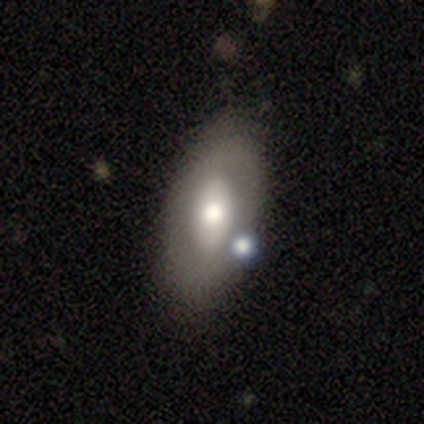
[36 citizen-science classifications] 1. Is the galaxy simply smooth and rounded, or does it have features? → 47% featured or disk, 44% smooth, 8% star or artifact.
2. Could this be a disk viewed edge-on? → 94% no, 6% yes.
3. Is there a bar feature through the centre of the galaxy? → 75% no, 19% strong, 6% weak.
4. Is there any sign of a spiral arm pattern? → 100% no, 0% yes.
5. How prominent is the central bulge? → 69% moderate, 31% large, 0% dominant, 0% small, 0% none.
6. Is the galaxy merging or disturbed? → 58% none, 15% merger, 9% minor disturbance, 3% major disturbance.